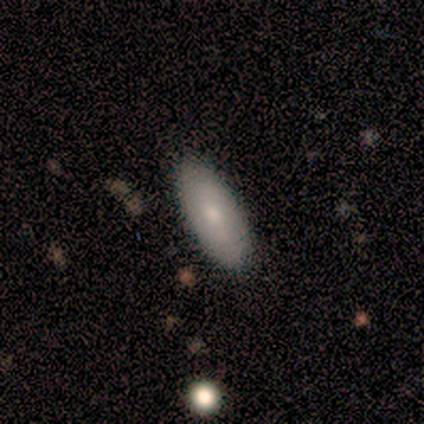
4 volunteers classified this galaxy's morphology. Q: Smooth or featured?
A: smooth (75%); runner-up: featured or disk (25%)
Q: How rounded?
A: in between (100%)
Q: Merging?
A: none (100%)